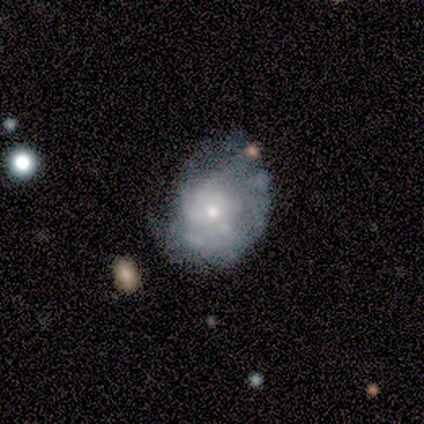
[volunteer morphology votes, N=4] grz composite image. It shows a smooth galaxy with no disk features (50%, tied with featured or disk) that is round (50%, tied with in between). Merging: minor disturbance (75%).